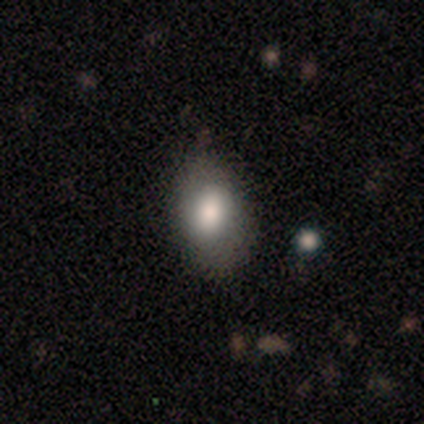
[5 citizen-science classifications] Smooth or featured? smooth (80%)
How rounded? in between (100%)
Merging? none (100%)